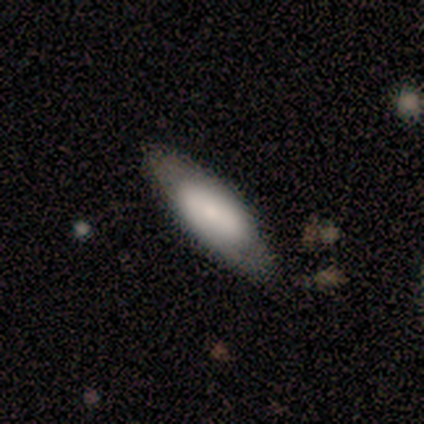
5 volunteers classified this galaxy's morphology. A smooth galaxy with no disk features (60%) that is cigar-shaped (67%). Merging: none (80%).